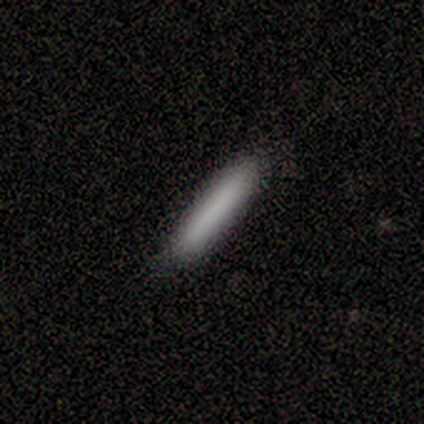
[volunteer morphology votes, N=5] A smooth galaxy with no disk features (100%) that is cigar-shaped (100%).

Vote fractions:
- Smooth or featured? smooth: 100% / featured or disk: 0% / star or artifact: 0%
- How rounded? cigar-shaped: 100% / round: 0% / in between: 0%
- Merging? none: 100% / minor disturbance: 0% / major disturbance: 0% / merger: 0%